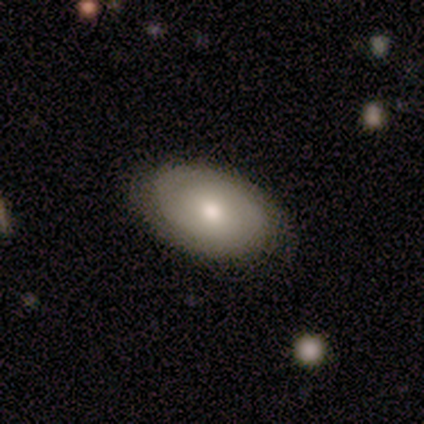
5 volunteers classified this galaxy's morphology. This appears to be a smooth galaxy with no disk features (40%, tied with featured or disk) that is in between round and cigar-shaped (100%). Merging: none (100%).